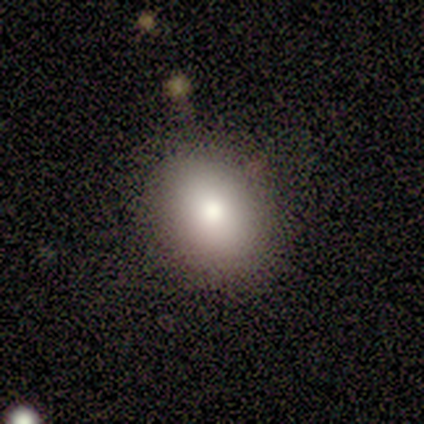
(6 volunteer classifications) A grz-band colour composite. It shows a smooth galaxy with no disk features (100%) that is in between round and cigar-shaped (83%). Merging: none (83%).